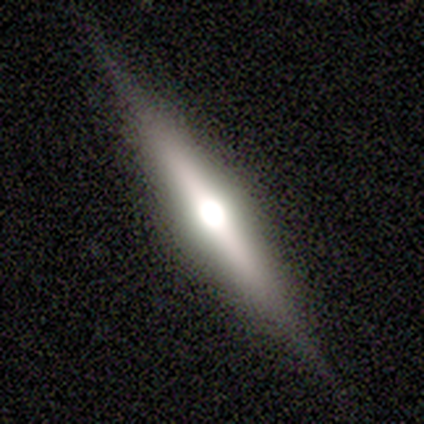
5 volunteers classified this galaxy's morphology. Overall: featured or disk (80%). Edge-on disk: yes (100%). Edge-on bulge: rounded (100%). Merging: none (100%).